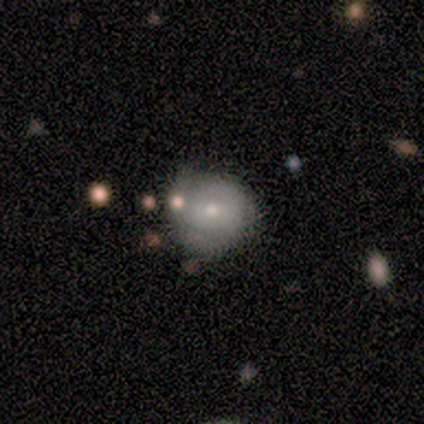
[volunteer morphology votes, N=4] smooth 75%, star or artifact 25%, featured or disk 0%. Down the decision tree: how rounded — round (100%); merging — none (67%).